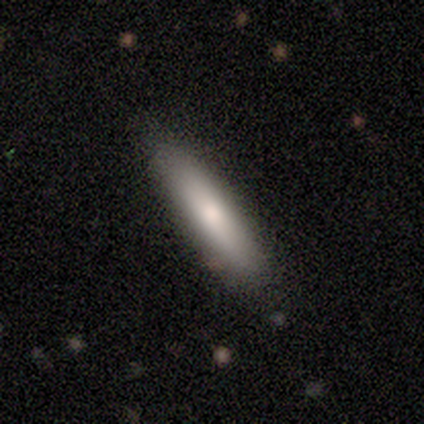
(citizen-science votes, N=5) A smooth galaxy with no disk features (80%) that is in between round and cigar-shaped (75%). Merging: minor disturbance (60%).